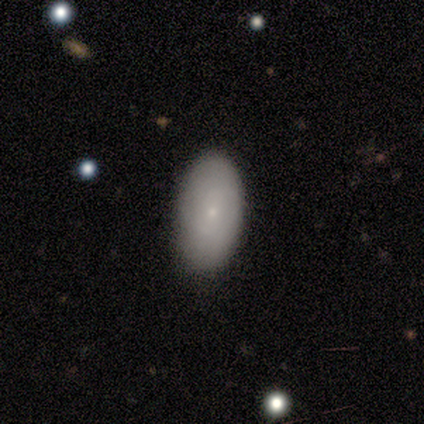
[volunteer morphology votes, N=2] smooth_or_featured: smooth (p=1.00)
how_rounded: in between (p=1.00)
merging: none (p=1.00)